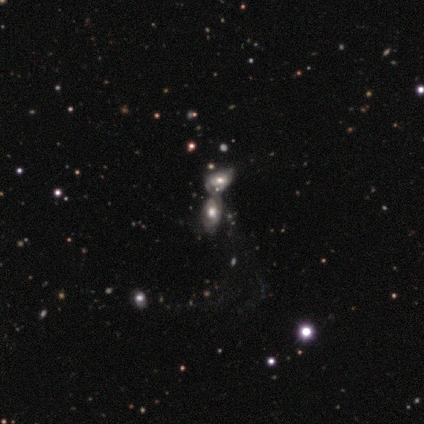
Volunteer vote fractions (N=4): featured or disk 50%, smooth 25%, star or artifact 25%. Down the decision tree: edge-on disk — no (100%); bar — no (100%); spiral arms — yes (50%, tied with no); spiral arm count — can't tell (100%); spiral winding — loose (100%); bulge size — large (50%, tied with moderate); merging — merger (100%).